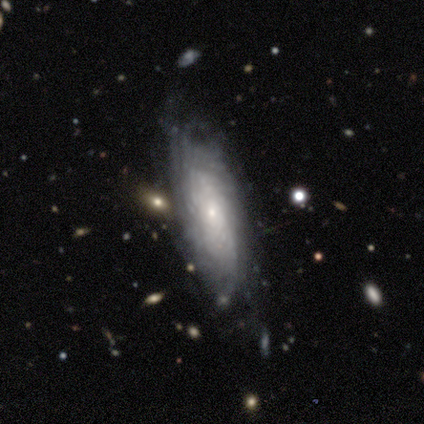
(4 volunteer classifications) Morphology: type=featured or disk (100%); edge-on=no (75%); bar=weak (67%); spiral arms=yes (67%); winding=tight (100%); arm count=more than 4 (50%, tied with can't tell); bulge=moderate (67%); merging=none (75%).